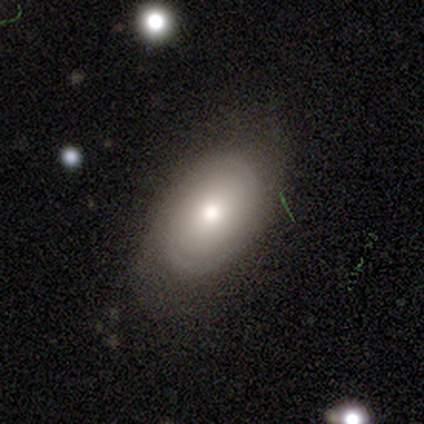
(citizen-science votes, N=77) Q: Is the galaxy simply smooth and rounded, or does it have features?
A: smooth — 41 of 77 (53%).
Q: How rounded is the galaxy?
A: in between — 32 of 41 (78%).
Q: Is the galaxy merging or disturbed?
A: none — 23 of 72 (32%).